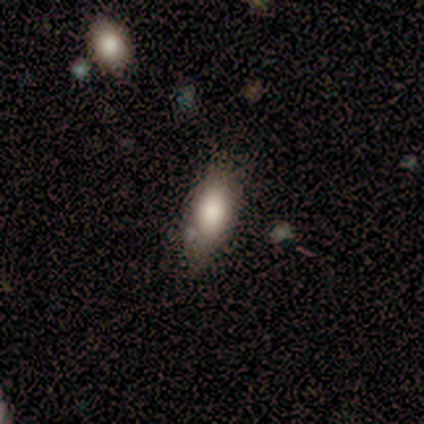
smooth_or_featured: smooth (p=1.00)
how_rounded: in between (p=1.00)
merging: none (p=0.80) [alt: minor disturbance p=0.20]